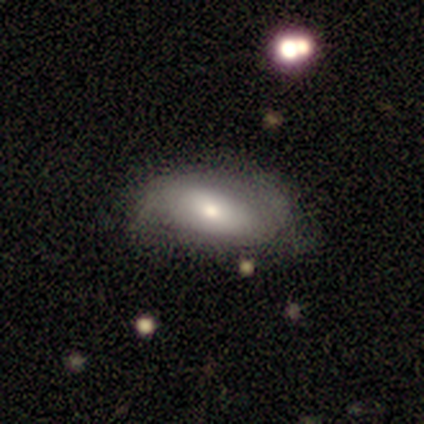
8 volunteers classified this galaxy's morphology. Smooth or featured?
  - smooth: 75% *
  - featured or disk: 12%
  - star or artifact: 12%
How rounded?
  - in between: 100% *
  - round: 0%
  - cigar-shaped: 0%
Merging?
  - none: 86% *
  - minor disturbance: 14%
  - major disturbance: 0%
  - merger: 0%